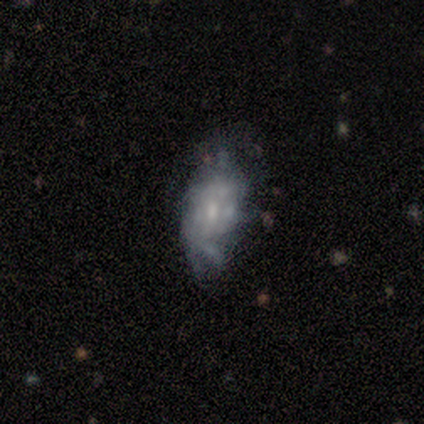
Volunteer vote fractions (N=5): This appears to be a featured or disk galaxy (60%) with no bar (100%), no spiral arms (67%) and a small central bulge (67%). Merging: major disturbance (60%).